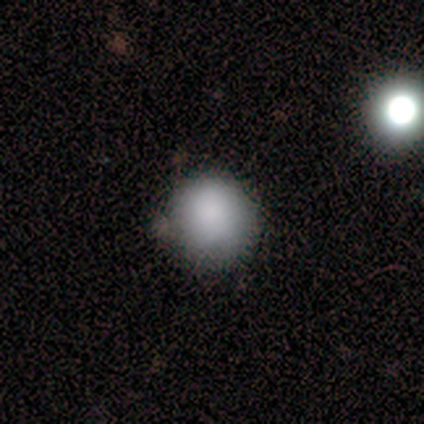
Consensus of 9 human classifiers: Morphology: type=smooth (100%); roundness=round (100%); merging=none (67%).